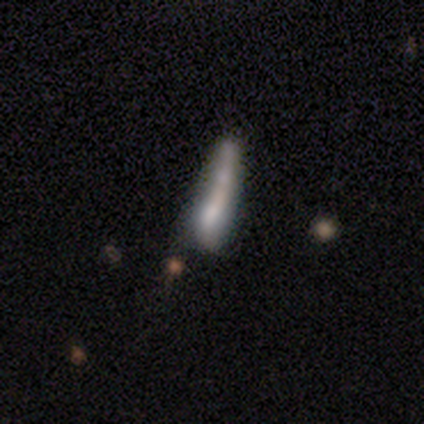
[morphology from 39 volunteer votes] Smooth or featured: featured or disk — 49% (smooth — 46%)
Edge-on disk: no — 53% (yes — 47%)
Bar: no — 90% (strong — 10%)
Spiral arms: no — 80% (yes — 20%)
Bulge size: none — 70% (moderate — 20%)
Merging: none — 35% (minor disturbance — 27%)